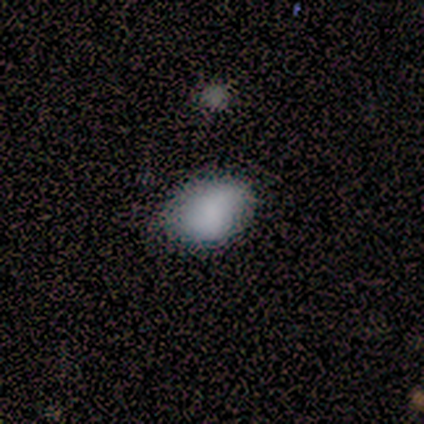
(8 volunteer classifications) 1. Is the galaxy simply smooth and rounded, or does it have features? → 75% smooth, 25% featured or disk, 0% star or artifact.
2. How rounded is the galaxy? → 100% in between, 0% round, 0% cigar-shaped.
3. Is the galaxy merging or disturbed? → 62% none, 38% minor disturbance, 0% major disturbance, 0% merger.